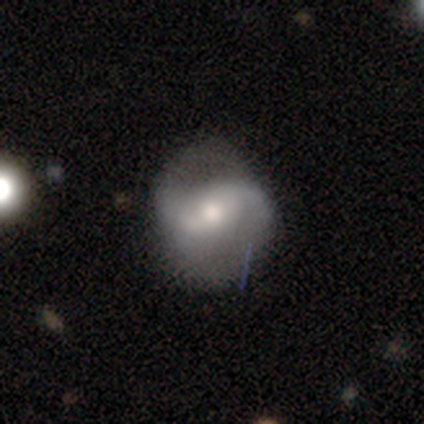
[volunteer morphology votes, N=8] smooth-or-featured: featured or disk: 75% | smooth: 25% | star or artifact: 0%
  disk-edge-on: no: 100% | yes: 0%
    bar: strong: 50% | weak: 33% | no: 17%
    has-spiral-arms: yes: 83% | no: 17%
      spiral-winding: medium: 60% | tight: 20% | loose: 20%
      spiral-arm-count: 2: 100% | 1: 0% | 3: 0% | 4: 0% | more than 4: 0% | can't tell: 0%
    bulge-size: moderate: 67% | large: 33% | dominant: 0% | small: 0% | none: 0%
  merging: none: 88% | minor disturbance: 12% | major disturbance: 0% | merger: 0%